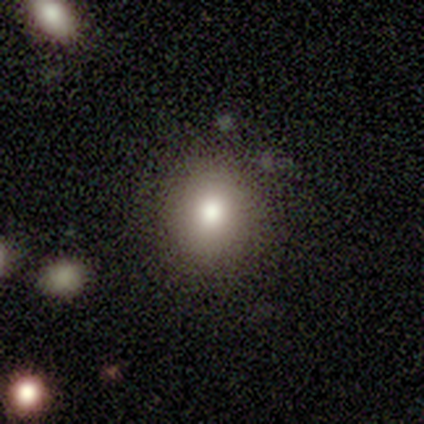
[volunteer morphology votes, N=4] A smooth galaxy with no disk features (50%, tied with star or artifact) that is round (50%, tied with in between). Merging: none (50%, tied with major disturbance).